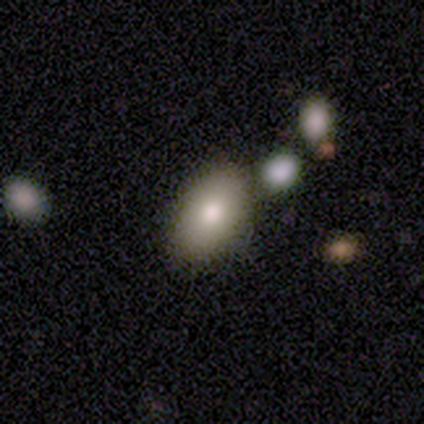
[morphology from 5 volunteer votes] Smooth or featured? 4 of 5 (80%) said smooth. How rounded? 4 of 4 (100%) said in between. Merging? 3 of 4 (75%) said none.